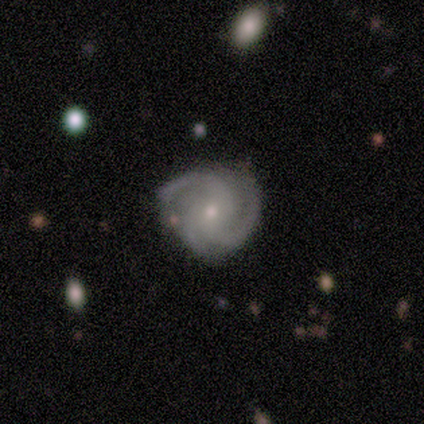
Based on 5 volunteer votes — This appears to be a featured or disk galaxy (100%) with no bar (60%), 3 (80%) medium (60%) spiral arms (100%) and a small central bulge (100%). Merging: none (80%).